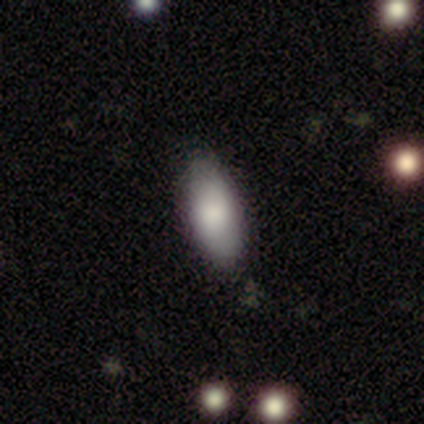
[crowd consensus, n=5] A smooth galaxy with no disk features (80%) that is in between round and cigar-shaped (50%, tied with cigar-shaped).

Vote fractions:
- Smooth or featured? smooth: 80% / star or artifact: 20% / featured or disk: 0%
- How rounded? in between: 50% (tied) / cigar-shaped: 50% (tied) / round: 0%
- Merging? none: 100% / minor disturbance: 0% / major disturbance: 0% / merger: 0%